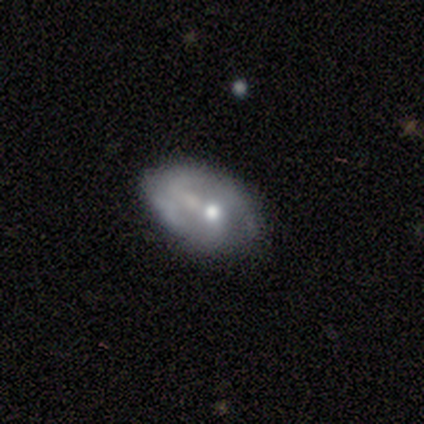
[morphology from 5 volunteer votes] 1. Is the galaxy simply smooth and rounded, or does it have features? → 60% smooth, 40% featured or disk, 0% star or artifact.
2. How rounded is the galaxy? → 100% in between, 0% round, 0% cigar-shaped.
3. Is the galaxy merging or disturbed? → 80% none, 20% minor disturbance, 0% major disturbance, 0% merger.